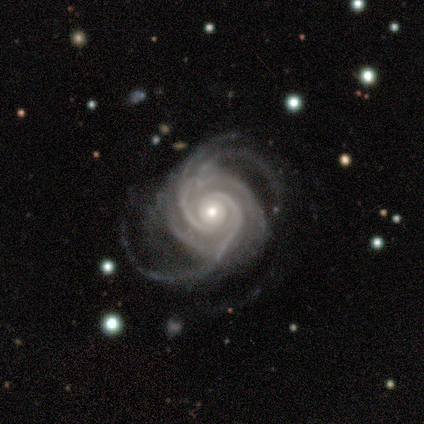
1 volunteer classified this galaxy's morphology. Overall: featured or disk (100%). Edge-on disk: no (100%). Bar: no (100%). Spiral arms: yes (100%). Spiral arm count: 3 (100%). Spiral winding: medium (100%). Bulge size: moderate (100%). Merging: major disturbance (100%).